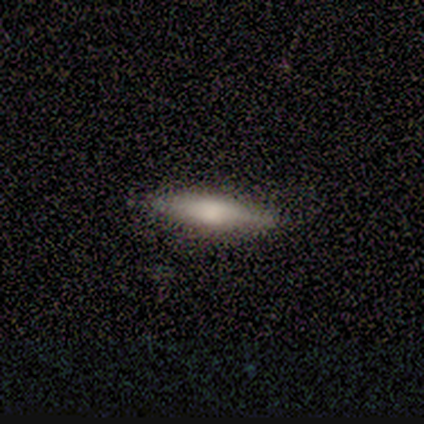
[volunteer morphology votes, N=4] A smooth galaxy with no disk features (75%) that is cigar-shaped (100%). Merging: none (100%).